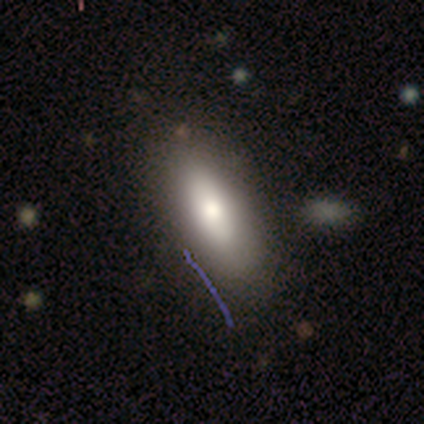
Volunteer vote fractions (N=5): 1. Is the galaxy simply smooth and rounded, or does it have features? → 80% smooth, 20% star or artifact, 0% featured or disk.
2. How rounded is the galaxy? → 75% cigar-shaped, 25% in between, 0% round.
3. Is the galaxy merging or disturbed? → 75% none, 25% minor disturbance, 0% major disturbance, 0% merger.